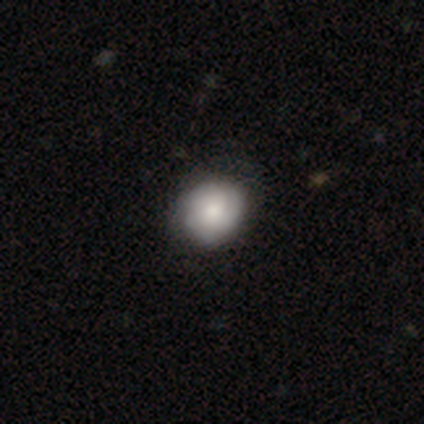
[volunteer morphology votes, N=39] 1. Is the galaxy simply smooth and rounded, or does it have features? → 54% smooth, 41% featured or disk, 5% star or artifact.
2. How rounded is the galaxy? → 81% round, 19% in between, 0% cigar-shaped.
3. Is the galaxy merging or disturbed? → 68% none, 11% minor disturbance, 0% major disturbance, 0% merger.